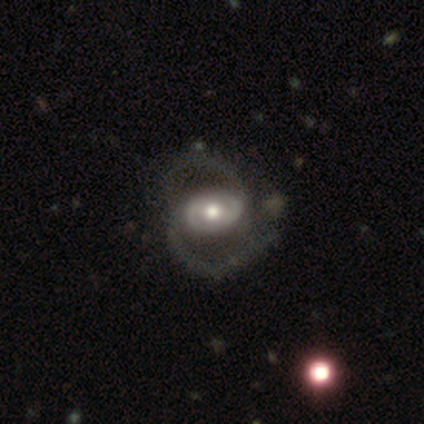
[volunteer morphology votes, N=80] featured or disk 90%, smooth 10%, star or artifact 0%. Down the decision tree: edge-on disk — no (96%); bar — no (48%); spiral arms — yes (86%); spiral arm count — 2 (98%); spiral winding — medium (49%); bulge size — moderate (80%); merging — none (36%).